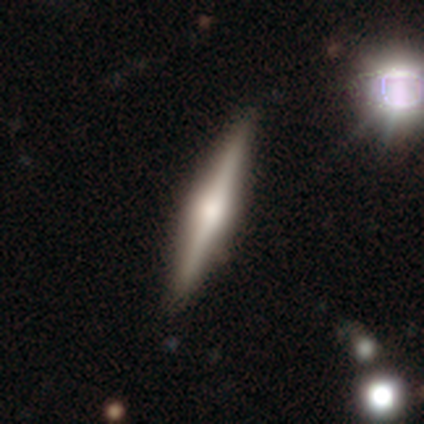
A featured or disk galaxy (80%) viewed edge-on (100%) with a rounded central bulge (100%). Merging: none (100%).